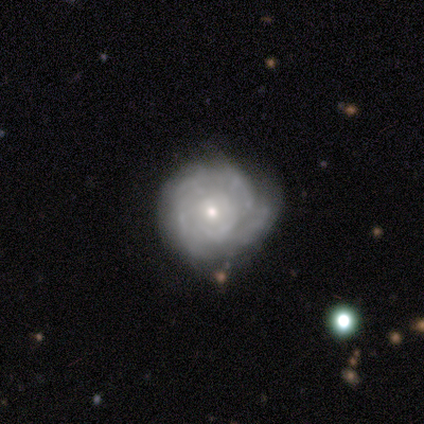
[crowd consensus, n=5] Overall: featured or disk (100%). Edge-on disk: no (100%). Bar: no (80%). Spiral arms: no (60%; yes 40%). Bulge size: small (60%; moderate 40%). Merging: none (60%; minor disturbance 40%).